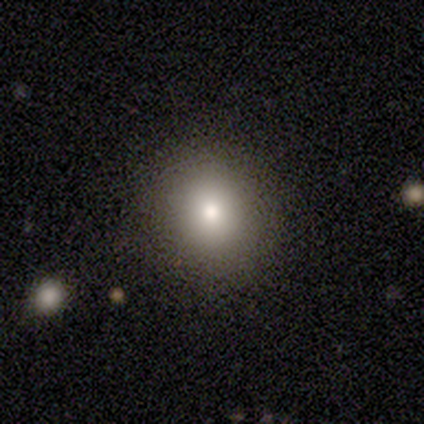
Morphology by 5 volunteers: type=smooth (100%); roundness=round (100%); merging=none (80%).